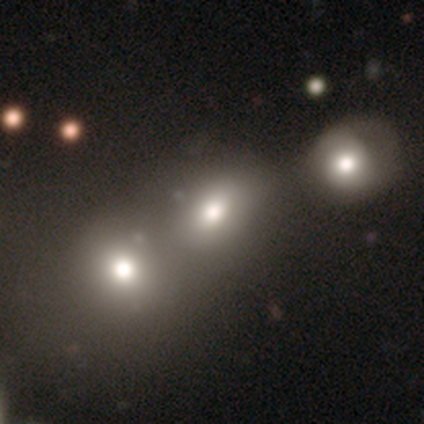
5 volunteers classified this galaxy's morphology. Q: Smooth or featured?
A: smooth (80%); runner-up: featured or disk (20%)
Q: How rounded?
A: round (50%); tied with: in between (50%)
Q: Merging?
A: merger (80%); runner-up: none (20%)